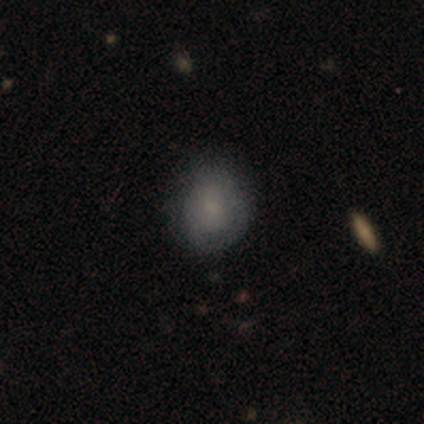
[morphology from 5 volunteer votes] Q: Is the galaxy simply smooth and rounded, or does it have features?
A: smooth — 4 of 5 (80%).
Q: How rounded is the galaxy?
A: round — 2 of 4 (50%).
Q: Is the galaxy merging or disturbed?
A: none — 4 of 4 (100%).